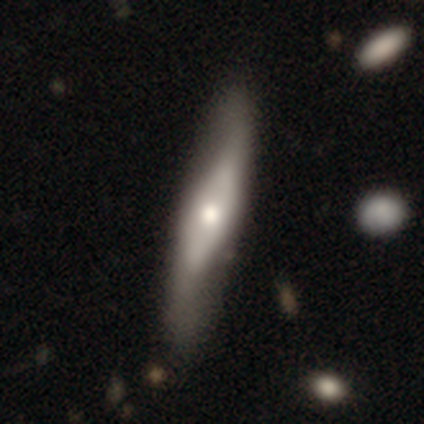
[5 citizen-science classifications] This is likely a featured or disk galaxy (60%). It is likely viewed edge-on (67%). Edge-on bulge: clearly rounded (100%). Merging: clearly none (80%).